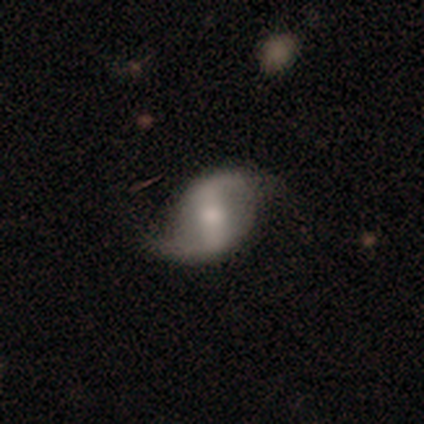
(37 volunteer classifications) smooth-or-featured: featured or disk: 86% | smooth: 14% | star or artifact: 0%
  disk-edge-on: no: 100% | yes: 0%
    bar: strong: 59% | weak: 34% | no: 6%
    has-spiral-arms: yes: 94% | no: 6%
      spiral-winding: loose: 83% | medium: 17% | tight: 0%
      spiral-arm-count: 2: 100% | 1: 0% | 3: 0% | 4: 0% | more than 4: 0% | can't tell: 0%
    bulge-size: small: 44% | moderate: 34% | none: 12% | large: 9% | dominant: 0%
  merging: none: 84% | minor disturbance: 11% | major disturbance: 5% | merger: 0%